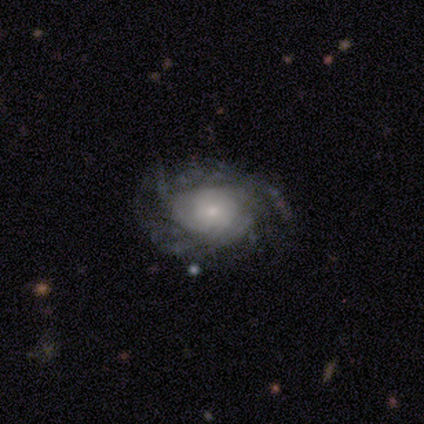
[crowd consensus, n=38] A featured or disk galaxy (82%) with no bar (79%), tight (52%) spiral arms (86%) and a small central bulge (66%).

Vote fractions:
- Smooth or featured? featured or disk: 82% / smooth: 18% / star or artifact: 0%
- Edge-on disk? no: 94% / yes: 6%
- Bar? no: 79% / weak: 21% / strong: 0%
- Spiral arms? yes: 86% / no: 14%
- Spiral winding? tight: 52% / medium: 24% / loose: 24%
- Spiral arm count? can't tell: 64% / more than 4: 16% / 2: 12% / 4: 8% / 1: 0% / 3: 0%
- Bulge size? small: 66% / moderate: 21% / large: 10% / none: 3% / dominant: 0%
- Merging? none: 79% / major disturbance: 13% / minor disturbance: 8% / merger: 0%